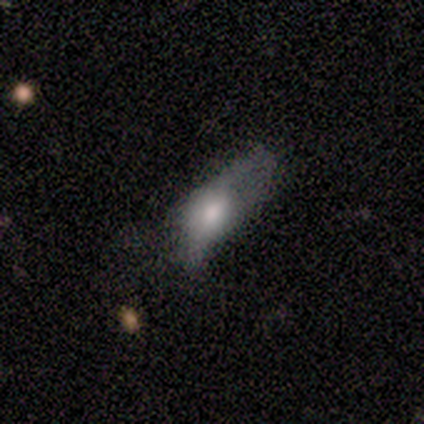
A smooth galaxy with no disk features (50%, tied with star or artifact) that is round (50%, tied with in between).

Vote fractions:
- Smooth or featured? smooth: 50% (tied) / star or artifact: 50% (tied) / featured or disk: 0%
- How rounded? round: 50% (tied) / in between: 50% (tied) / cigar-shaped: 0%
- Merging? major disturbance: 100% / none: 0% / minor disturbance: 0% / merger: 0%